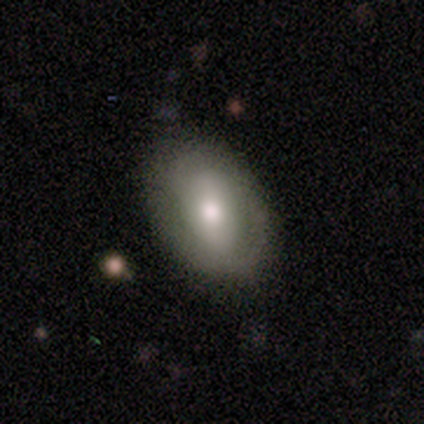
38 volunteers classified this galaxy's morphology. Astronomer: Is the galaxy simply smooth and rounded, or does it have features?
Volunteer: smooth — 55% (runner-up: featured or disk, 37%).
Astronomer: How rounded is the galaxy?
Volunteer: in between — 76%.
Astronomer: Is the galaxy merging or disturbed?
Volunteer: none — 71%.